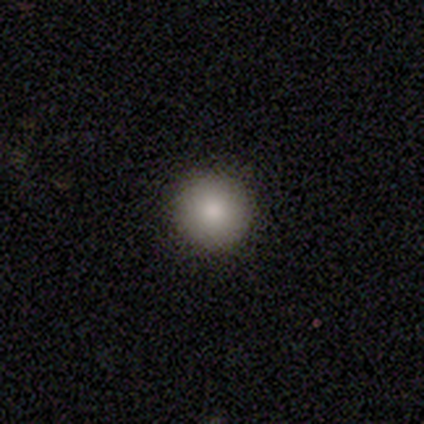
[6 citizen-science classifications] A smooth galaxy with no disk features (67%) that is round (100%).

Vote fractions:
- Smooth or featured? smooth: 67% / featured or disk: 17% / star or artifact: 17%
- How rounded? round: 100% / in between: 0% / cigar-shaped: 0%
- Merging? none: 80% / major disturbance: 20% / minor disturbance: 0% / merger: 0%